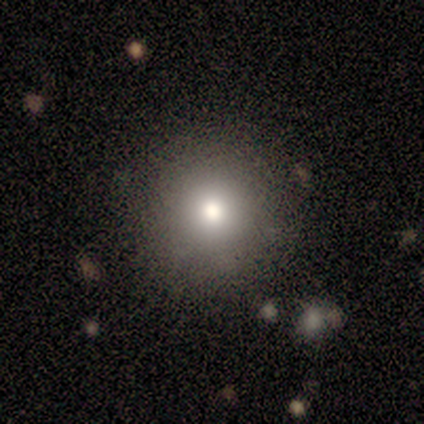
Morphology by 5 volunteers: Smooth or featured? smooth (80%)
How rounded? round (100%)
Merging? none (75%)